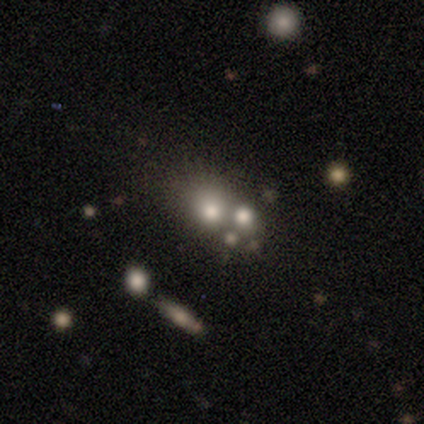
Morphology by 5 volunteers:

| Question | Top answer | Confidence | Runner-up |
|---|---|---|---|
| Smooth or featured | smooth | 40% | tied: featured or disk (40%) |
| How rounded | round | 100% | — |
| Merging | merger | 50% | none (25%) |